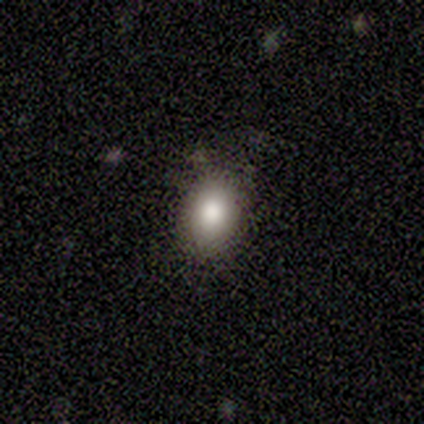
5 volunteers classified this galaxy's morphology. A smooth galaxy with no disk features (100%) that is in between round and cigar-shaped (80%).

Vote fractions:
- Smooth or featured? smooth: 100% / featured or disk: 0% / star or artifact: 0%
- How rounded? in between: 80% / round: 20% / cigar-shaped: 0%
- Merging? minor disturbance: 60% / none: 40% / major disturbance: 0% / merger: 0%